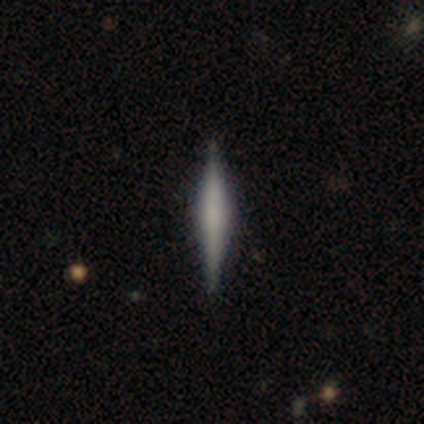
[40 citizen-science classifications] A featured or disk galaxy (60%) viewed edge-on (96%) with a rounded central bulge (43%).

Vote fractions:
- Smooth or featured? featured or disk: 60% / smooth: 35% / star or artifact: 5%
- Edge-on disk? yes: 96% / no: 4%
- Edge-on bulge? rounded: 43% / none: 30% / boxy: 26%
- Merging? none: 87% / minor disturbance: 11% / major disturbance: 3% / merger: 0%